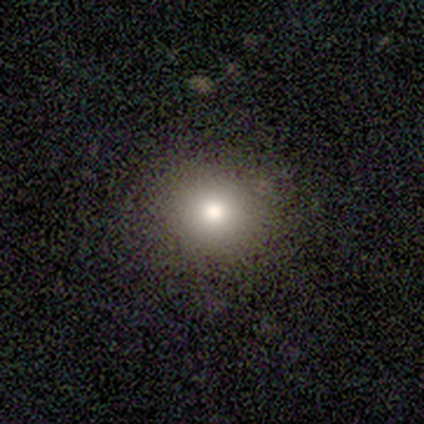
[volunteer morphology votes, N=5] smooth 100%, featured or disk 0%, star or artifact 0%. Down the decision tree: how rounded — round (100%); merging — none (80%).